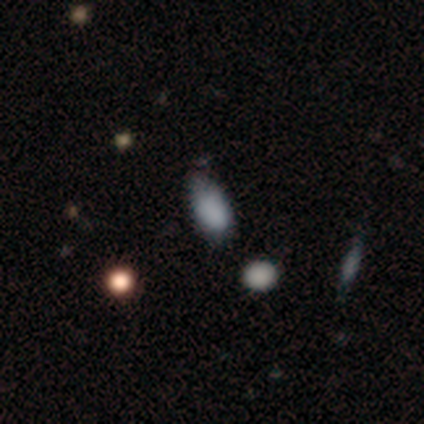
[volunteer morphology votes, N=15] type=smooth (80%); roundness=in between (100%); merging=minor disturbance (50%).